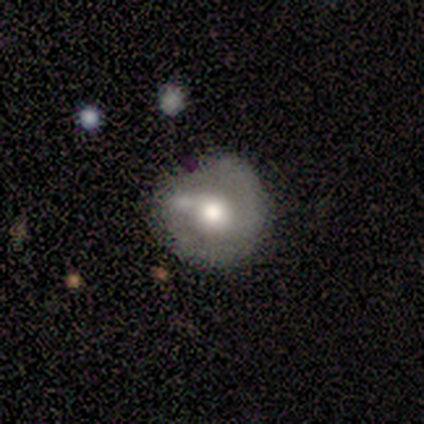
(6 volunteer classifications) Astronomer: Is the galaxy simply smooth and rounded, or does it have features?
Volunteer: featured or disk — 67%.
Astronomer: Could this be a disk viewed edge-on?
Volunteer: no — 100%.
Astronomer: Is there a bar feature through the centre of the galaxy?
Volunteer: no — 75%.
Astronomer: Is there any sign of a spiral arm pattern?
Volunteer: no — 100%.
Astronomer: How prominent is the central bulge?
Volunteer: moderate — 100%.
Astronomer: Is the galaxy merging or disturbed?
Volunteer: minor disturbance — 50% (runner-up: none, 33%).